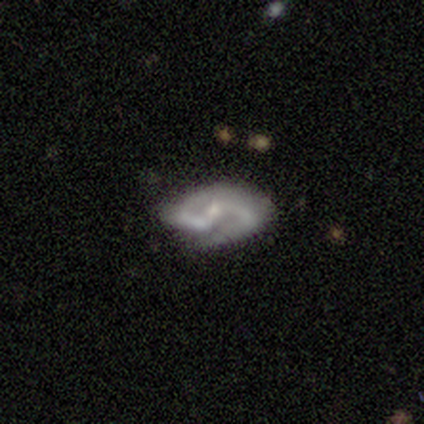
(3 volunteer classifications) Smooth or featured?
  - featured or disk: 100% *
  - smooth: 0%
  - star or artifact: 0%
Edge-on disk?
  - no: 100% *
  - yes: 0%
Bar?
  - strong: 33% * (tied)
  - weak: 33% * (tied)
  - no: 33% * (tied)
Spiral arms?
  - yes: 100% *
  - no: 0%
Spiral winding?
  - medium: 100% *
  - tight: 0%
  - loose: 0%
Spiral arm count?
  - 2: 100% *
  - 1: 0%
  - 3: 0%
  - 4: 0%
  - more than 4: 0%
  - can't tell: 0%
Bulge size?
  - small: 100% *
  - dominant: 0%
  - large: 0%
  - moderate: 0%
  - none: 0%
Merging?
  - none: 100% *
  - minor disturbance: 0%
  - major disturbance: 0%
  - merger: 0%